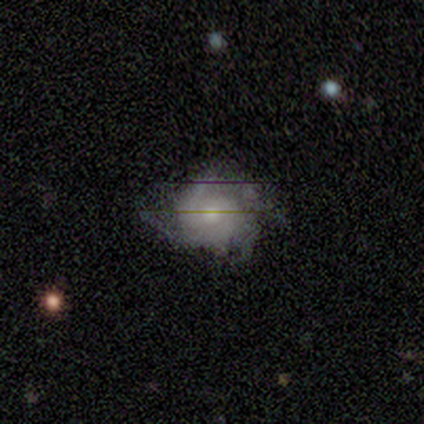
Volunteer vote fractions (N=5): smooth-or-featured: featured or disk: 80% | star or artifact: 20% | smooth: 0%
  disk-edge-on: no: 100% | yes: 0%
    bar: no: 100% | strong: 0% | weak: 0%
    has-spiral-arms: yes: 100% | no: 0%
      spiral-winding: medium: 75% | tight: 25% | loose: 0%
      spiral-arm-count: 4: 50% | 2: 25% | can't tell: 25% | 1: 0% | 3: 0% | more than 4: 0%
    bulge-size: moderate: 100% | dominant: 0% | large: 0% | small: 0% | none: 0%
  merging: none: 100% | minor disturbance: 0% | major disturbance: 0% | merger: 0%